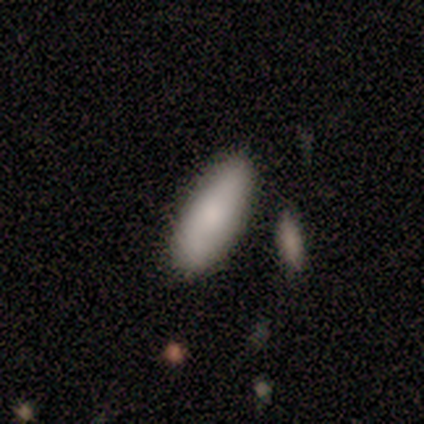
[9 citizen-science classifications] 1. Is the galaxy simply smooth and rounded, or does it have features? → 100% smooth, 0% featured or disk, 0% star or artifact.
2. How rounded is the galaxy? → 78% in between, 22% cigar-shaped, 0% round.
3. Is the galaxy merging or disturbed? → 100% none, 0% minor disturbance, 0% major disturbance, 0% merger.